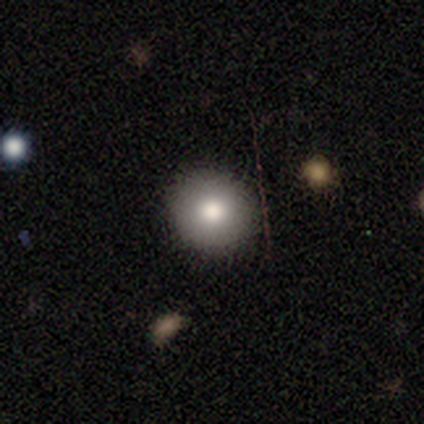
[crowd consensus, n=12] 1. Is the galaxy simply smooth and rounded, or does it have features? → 92% smooth, 8% featured or disk, 0% star or artifact.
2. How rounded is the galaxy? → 100% round, 0% in between, 0% cigar-shaped.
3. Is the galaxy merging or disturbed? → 92% none, 8% minor disturbance, 0% major disturbance, 0% merger.